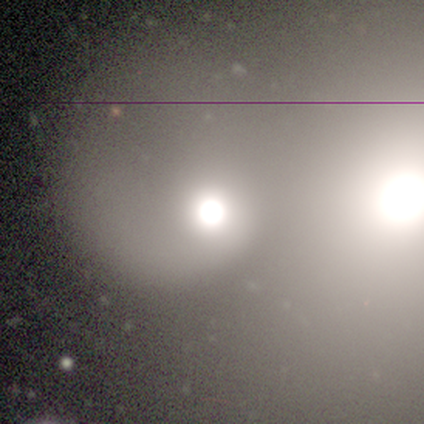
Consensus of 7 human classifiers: This appears to be a smooth galaxy with no disk features (71%) that is round (100%). Merging: merger (71%).